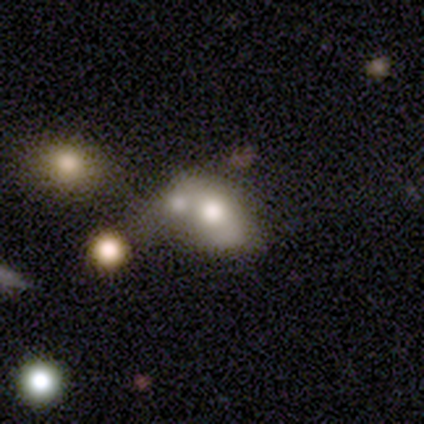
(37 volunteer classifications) Smooth or featured? 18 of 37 (49%) said smooth. How rounded? 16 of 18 (89%) said in between. Merging? 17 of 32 (53%) said merger.